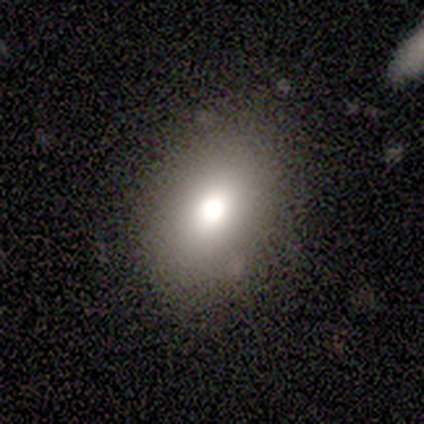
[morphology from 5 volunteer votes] Smooth or featured?
  - smooth: 80% *
  - star or artifact: 20%
  - featured or disk: 0%
How rounded?
  - in between: 75% *
  - round: 25%
  - cigar-shaped: 0%
Merging?
  - none: 100% *
  - minor disturbance: 0%
  - major disturbance: 0%
  - merger: 0%